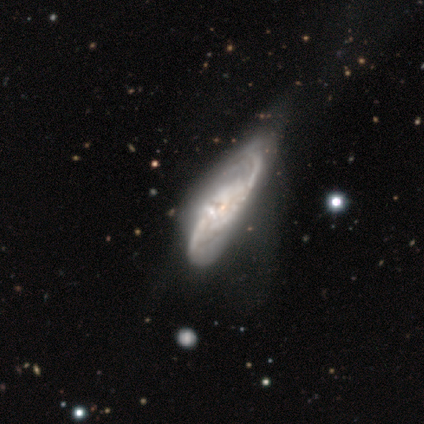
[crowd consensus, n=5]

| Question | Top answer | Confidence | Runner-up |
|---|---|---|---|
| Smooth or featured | featured or disk | 80% | smooth (20%) |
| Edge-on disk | no | 75% | yes (25%) |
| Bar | no | 67% | weak (33%) |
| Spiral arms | yes | 100% | — |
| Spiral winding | loose | 67% | medium (33%) |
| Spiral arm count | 2 | 100% | — |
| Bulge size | small | 67% | moderate (33%) |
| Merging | minor disturbance | 60% | none (40%) |